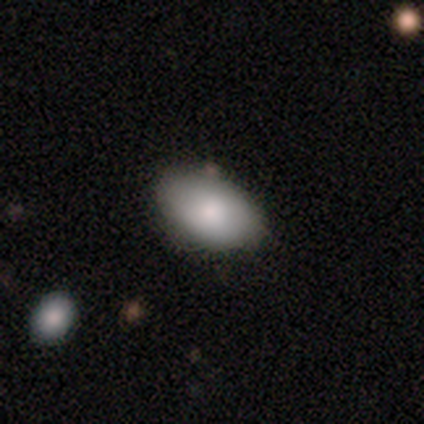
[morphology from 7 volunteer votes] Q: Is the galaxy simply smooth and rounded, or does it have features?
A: smooth — 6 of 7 (86%).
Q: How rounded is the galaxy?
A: in between — 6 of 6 (100%).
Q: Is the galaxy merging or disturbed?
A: none — 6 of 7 (86%).